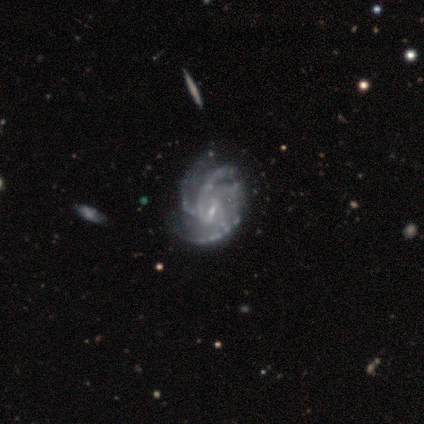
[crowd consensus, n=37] A featured or disk galaxy (86%) with a weak bar (75%), 4 (28%, tied with can't tell) medium (47%) spiral arms (100%) and a small central bulge (75%). Merging: none (69%).